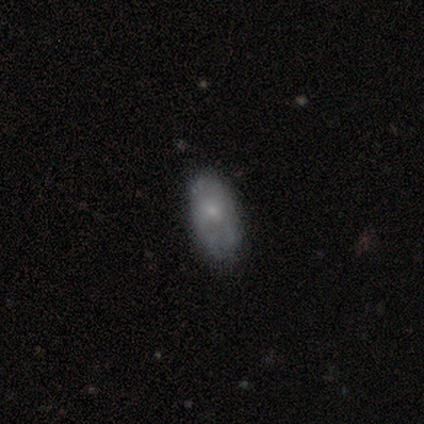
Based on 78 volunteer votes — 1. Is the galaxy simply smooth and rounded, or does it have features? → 49% smooth, 47% featured or disk, 4% star or artifact.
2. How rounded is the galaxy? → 95% in between, 3% round, 3% cigar-shaped.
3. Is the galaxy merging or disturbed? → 40% none, 11% minor disturbance, 3% merger, 0% major disturbance.